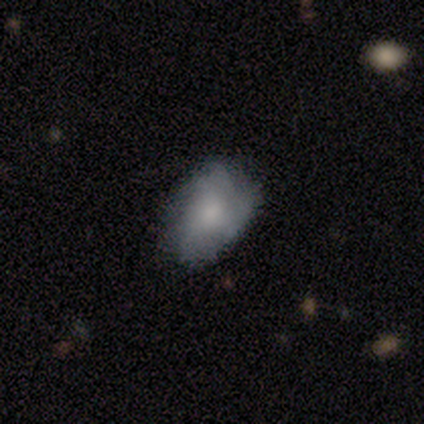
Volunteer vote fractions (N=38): Overall: featured or disk (50%; smooth 47%). Edge-on disk: no (89%). Bar: no (82%). Spiral arms: yes (65%; no 35%). Spiral arm count: can't tell (55%; 4 18%). Spiral winding: tight (82%). Bulge size: moderate (41%; small 29%). Merging: none (59%; minor disturbance 32%).